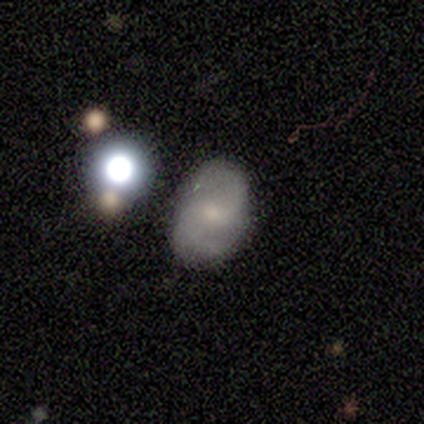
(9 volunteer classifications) This is marginally a smooth galaxy (44%, tied with featured or disk). How rounded: clearly in between (100%). Merging: likely none (75%).